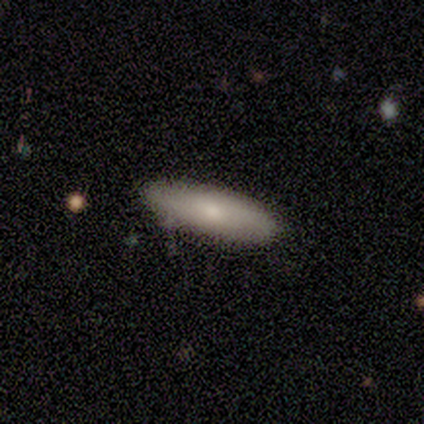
A smooth galaxy with no disk features (50%, tied with featured or disk) that is in between round and cigar-shaped (100%).

Vote fractions:
- Smooth or featured? smooth: 50% (tied) / featured or disk: 50% (tied) / star or artifact: 0%
- How rounded? in between: 100% / round: 0% / cigar-shaped: 0%
- Merging? none: 100% / minor disturbance: 0% / major disturbance: 0% / merger: 0%